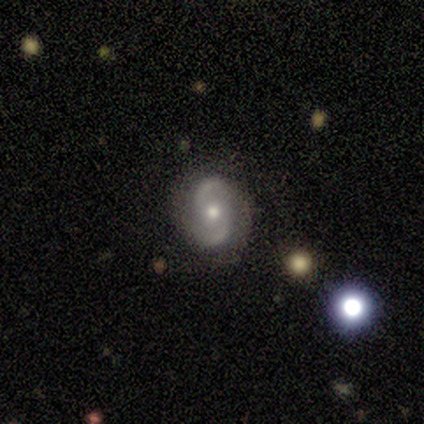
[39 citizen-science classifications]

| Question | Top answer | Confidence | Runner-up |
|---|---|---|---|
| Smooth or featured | featured or disk | 79% | smooth (13%) |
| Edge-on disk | no | 100% | — |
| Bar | no | 61% | weak (35%) |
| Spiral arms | yes | 94% | no (6%) |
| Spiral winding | loose | 52% | medium (31%) |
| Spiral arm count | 2 | 100% | — |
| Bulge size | moderate | 58% | small (32%) |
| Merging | none | 94% | minor disturbance (3%) |